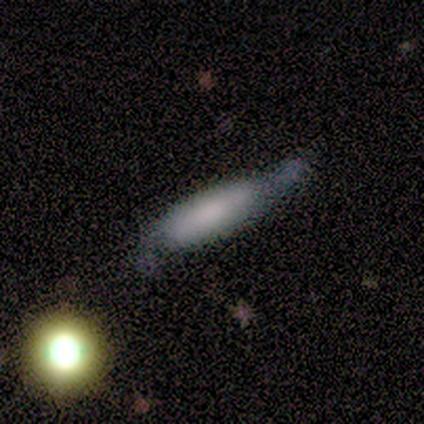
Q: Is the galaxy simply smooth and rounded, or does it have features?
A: smooth — 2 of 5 (40%, tied with featured or disk).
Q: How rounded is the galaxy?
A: cigar-shaped — 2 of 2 (100%).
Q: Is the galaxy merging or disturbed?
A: minor disturbance — 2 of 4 (50%, tied with major disturbance).